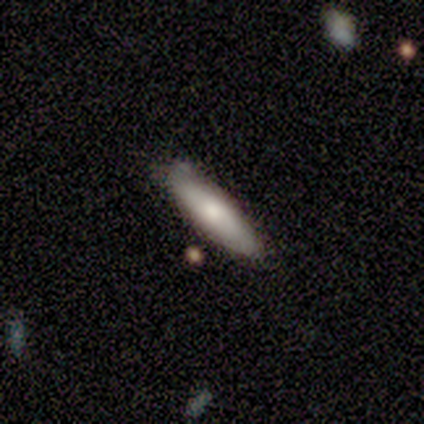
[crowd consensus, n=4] Smooth or featured? smooth (50%)
How rounded? in between (50%, tied with cigar-shaped)
Merging? minor disturbance (67%)